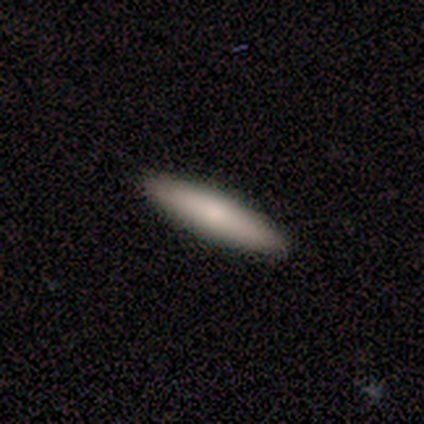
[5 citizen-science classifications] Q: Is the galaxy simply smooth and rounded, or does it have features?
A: smooth — 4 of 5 (80%).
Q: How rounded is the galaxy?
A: cigar-shaped — 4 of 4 (100%).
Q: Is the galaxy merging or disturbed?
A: none — 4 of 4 (100%).